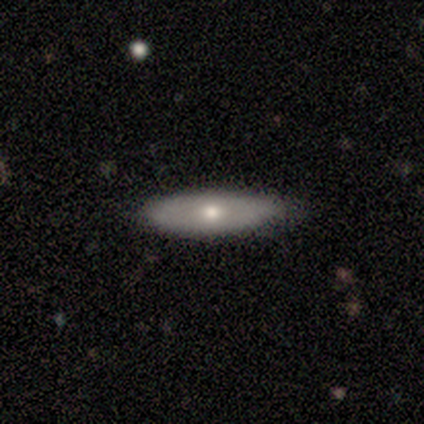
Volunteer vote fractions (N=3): This appears to be a smooth galaxy with no disk features (67%) that is cigar-shaped (100%). Merging: none (100%).